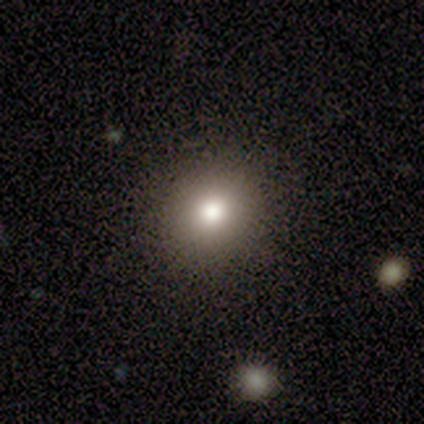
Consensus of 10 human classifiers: Q: Smooth or featured?
A: smooth (90%); runner-up: featured or disk (10%)
Q: How rounded?
A: round (78%); runner-up: in between (22%)
Q: Merging?
A: none (90%); runner-up: major disturbance (10%)